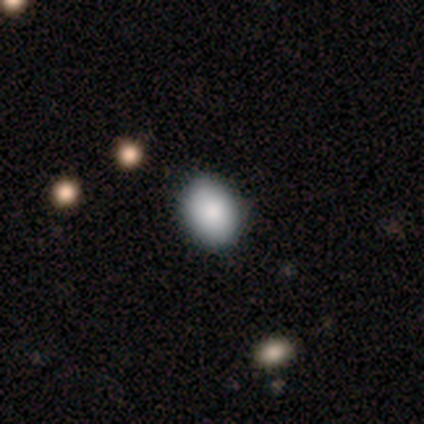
Morphology: type=smooth (67%); roundness=in between (100%); merging=none (50%, tied with minor disturbance).